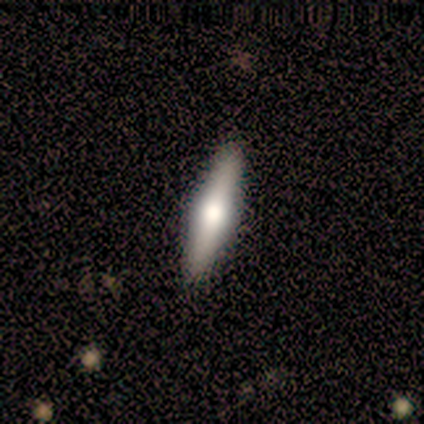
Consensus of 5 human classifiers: smooth-or-featured: featured or disk: 100% | smooth: 0% | star or artifact: 0%
  disk-edge-on: yes: 100% | no: 0%
    edge-on-bulge: rounded: 100% | boxy: 0% | none: 0%
  merging: none: 100% | minor disturbance: 0% | major disturbance: 0% | merger: 0%